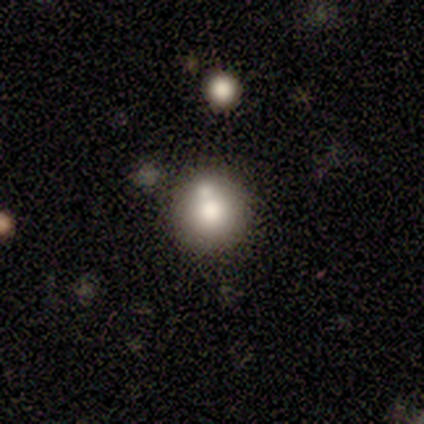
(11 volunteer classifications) A smooth galaxy with no disk features (73%) that is round (100%). Merging: none (60%).